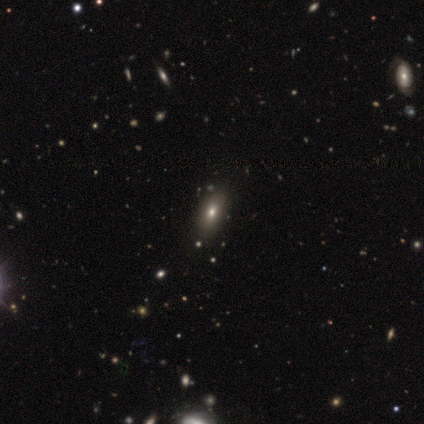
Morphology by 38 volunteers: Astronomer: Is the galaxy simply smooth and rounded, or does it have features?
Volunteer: smooth — 84%.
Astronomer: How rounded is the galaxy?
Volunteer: in between — 91%.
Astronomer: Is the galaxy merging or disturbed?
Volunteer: none — 59%.